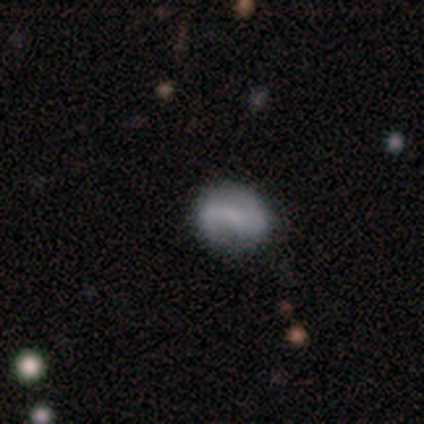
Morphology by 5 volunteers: featured or disk 100%, smooth 0%, star or artifact 0%. Down the decision tree: edge-on disk — no (100%); bar — weak (40%, tied with no); spiral arms — yes (60%); spiral arm count — 2 (100%); spiral winding — medium (67%); bulge size — none (100%); merging — none (80%).